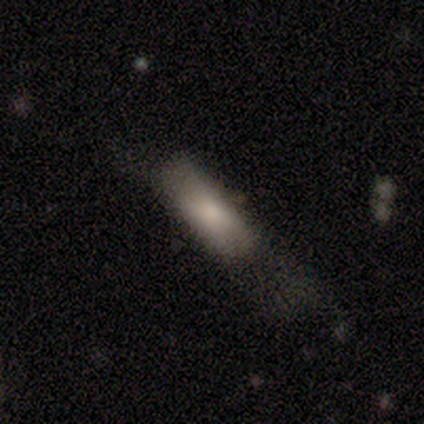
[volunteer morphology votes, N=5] This is clearly a featured or disk galaxy (80%). It is likely not viewed edge-on (75%). Bar: likely no (67%). Spiral arm pattern: clearly no (100%). Central bulge: likely moderate (67%). Merging: likely none (60%).